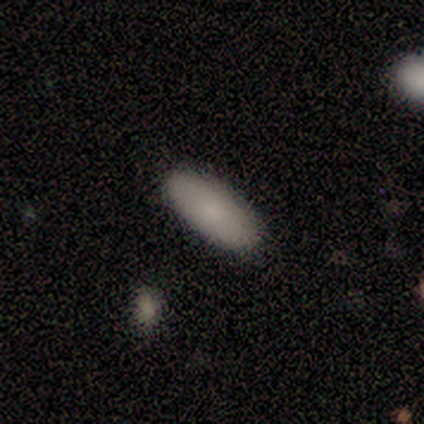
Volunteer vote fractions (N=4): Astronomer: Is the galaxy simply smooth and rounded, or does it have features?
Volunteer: smooth — 75%.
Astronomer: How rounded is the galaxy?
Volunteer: in between — 100%.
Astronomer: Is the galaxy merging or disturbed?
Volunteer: none — 75%.